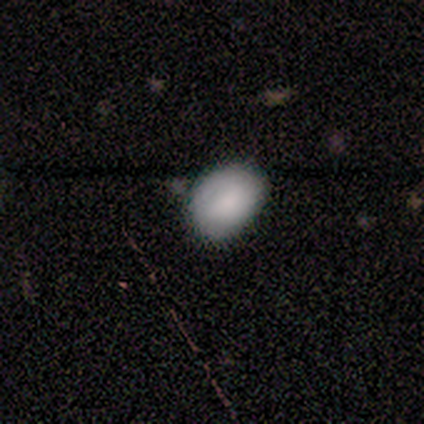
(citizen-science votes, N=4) Q: Smooth or featured?
A: smooth (100%)
Q: How rounded?
A: in between (75%); runner-up: round (25%)
Q: Merging?
A: none (50%); runner-up: minor disturbance (25%)